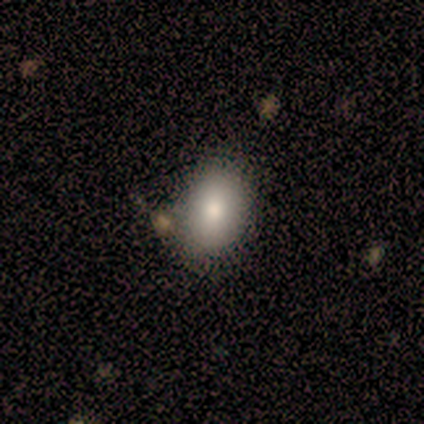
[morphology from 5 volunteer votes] Volunteers were most divided on "smooth or featured": smooth: 60%, star or artifact: 40%, featured or disk: 0%. More confident: merging — none (100%); how rounded — in between (67%).